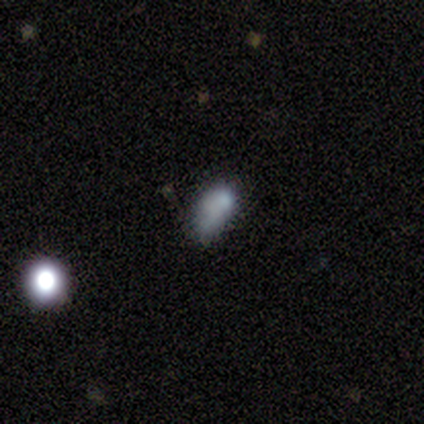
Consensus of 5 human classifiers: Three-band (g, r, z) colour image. It shows a smooth galaxy with no disk features (80%) that is in between round and cigar-shaped (100%). Merging: none (75%).